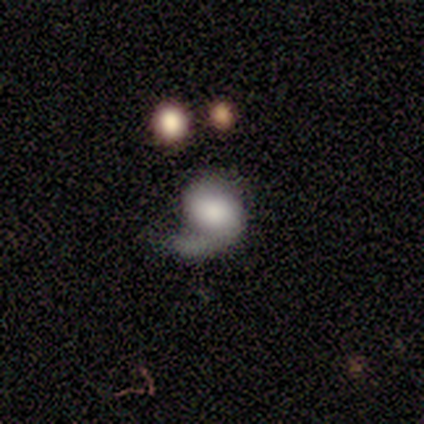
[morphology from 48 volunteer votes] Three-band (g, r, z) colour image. It shows a featured or disk galaxy (62%) with no bar (53%), 1 (60%) loose (48%) spiral arms (83%) and a moderate central bulge (27%, tied with none). Merging: none (49%).